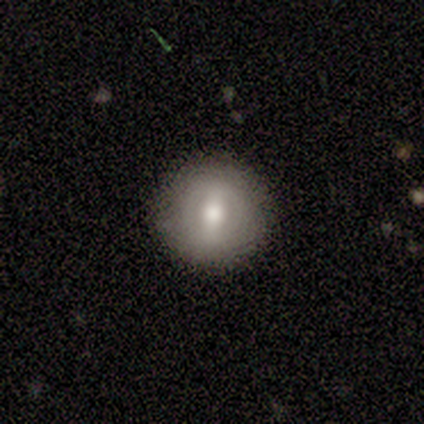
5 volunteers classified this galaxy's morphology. This is likely a smooth galaxy (60%). How rounded: clearly round (100%). Merging: clearly none (80%).